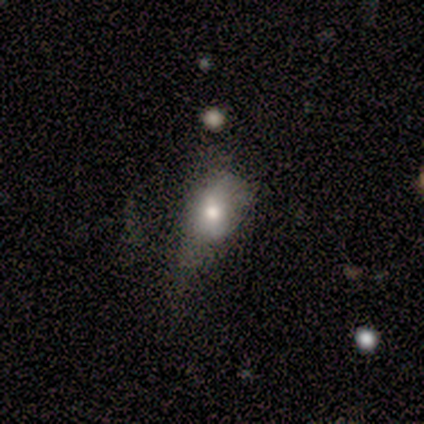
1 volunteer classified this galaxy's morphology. Smooth or featured? 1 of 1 (100%) said star or artifact.